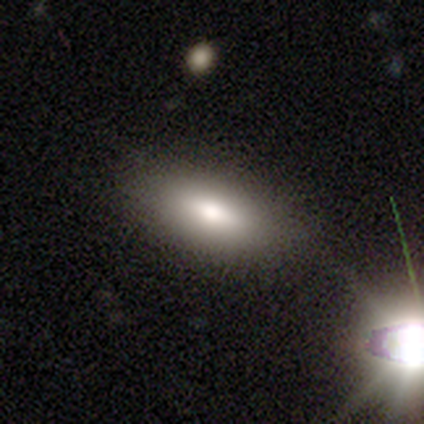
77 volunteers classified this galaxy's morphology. type=smooth (74%); roundness=in between (95%); merging=none (45%).